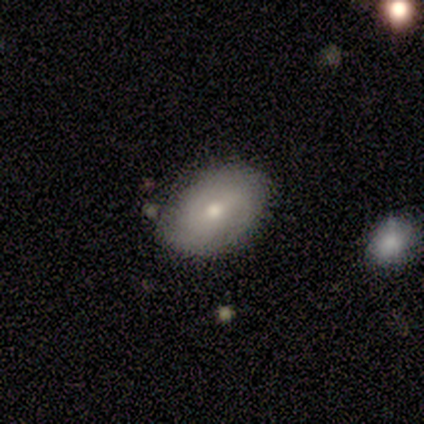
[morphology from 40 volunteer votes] Smooth or featured: featured or disk — 50% (smooth — 48%)
Edge-on disk: no — 100%
Bar: weak — 50% (no — 45%)
Spiral arms: no — 60% (yes — 40%)
Bulge size: moderate — 55% (small — 45%)
Merging: none — 56% (minor disturbance — 10%)